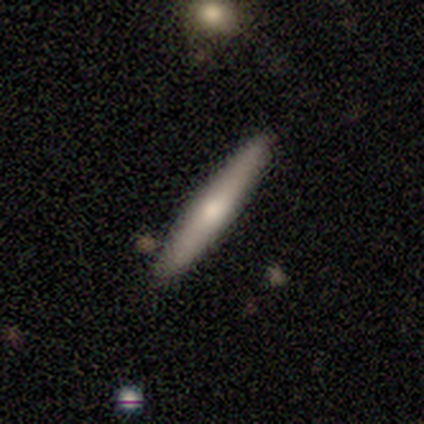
This is possibly a smooth galaxy (58%). How rounded: clearly cigar-shaped (100%). Merging: clearly none (89%).